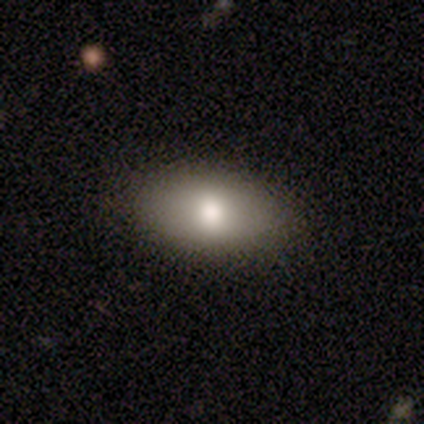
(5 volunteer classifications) A smooth galaxy with no disk features (60%) that is in between round and cigar-shaped (100%).

Vote fractions:
- Smooth or featured? smooth: 60% / featured or disk: 20% / star or artifact: 20%
- How rounded? in between: 100% / round: 0% / cigar-shaped: 0%
- Merging? none: 100% / minor disturbance: 0% / major disturbance: 0% / merger: 0%